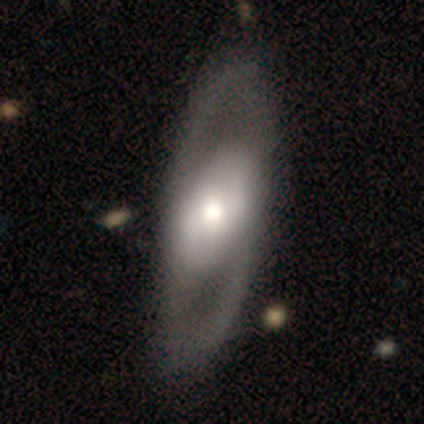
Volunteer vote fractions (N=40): Morphology: type=featured or disk (70%); edge-on=no (79%); bar=no (55%); spiral arms=yes (68%); winding=medium (53%); arm count=2 (93%); bulge=moderate (45%); merging=none (56%).